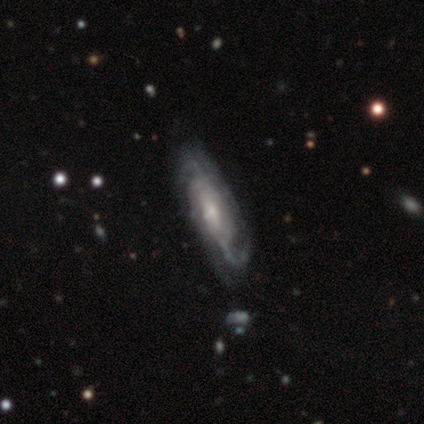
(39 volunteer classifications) Morphology: type=featured or disk (85%); edge-on=no (88%); bar=no (69%); spiral arms=yes (93%); winding=tight (37%); arm count=can't tell (37%); bulge=small (76%); merging=none (79%).